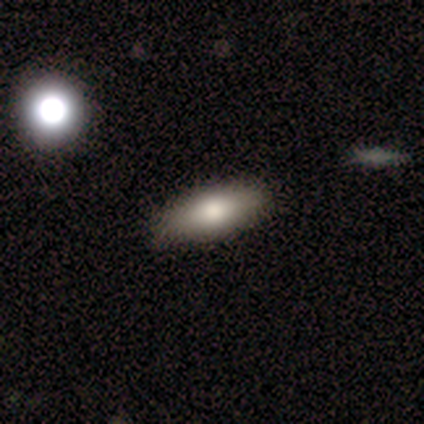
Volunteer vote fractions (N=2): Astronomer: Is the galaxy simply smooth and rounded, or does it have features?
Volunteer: smooth — 50%, tied with featured or disk at 50%.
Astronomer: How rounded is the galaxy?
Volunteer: round — 100%.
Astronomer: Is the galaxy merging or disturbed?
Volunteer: none — 100%.